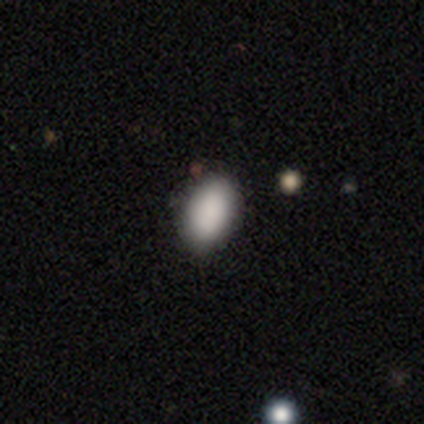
Smooth or featured: smooth — 75% (star or artifact — 25%)
How rounded: in between — 83% (round — 17%)
Merging: none — 83% (minor disturbance — 17%)